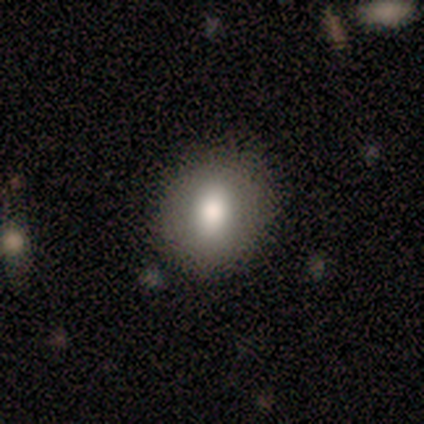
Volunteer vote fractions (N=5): Overall: smooth (100%). How rounded: round (60%; in between 40%). Merging: none (60%; minor disturbance 20%).